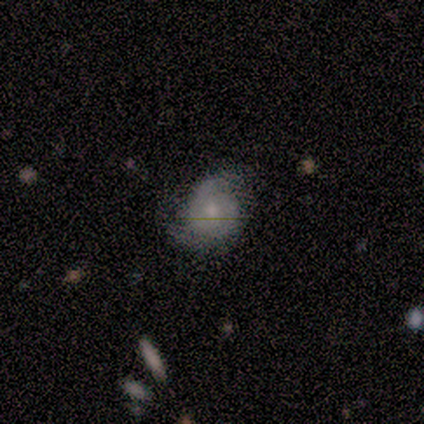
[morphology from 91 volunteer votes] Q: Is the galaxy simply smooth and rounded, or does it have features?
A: featured or disk — 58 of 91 (64%).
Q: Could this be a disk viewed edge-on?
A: no — 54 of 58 (93%).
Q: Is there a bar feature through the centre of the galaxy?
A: no — 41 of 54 (76%).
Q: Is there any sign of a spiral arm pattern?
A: yes — 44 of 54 (81%).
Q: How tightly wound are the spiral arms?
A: tight — 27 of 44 (61%).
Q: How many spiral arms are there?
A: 2 — 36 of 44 (82%).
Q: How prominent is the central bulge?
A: moderate — 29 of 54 (54%).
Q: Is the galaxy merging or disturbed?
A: none — 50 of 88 (57%).